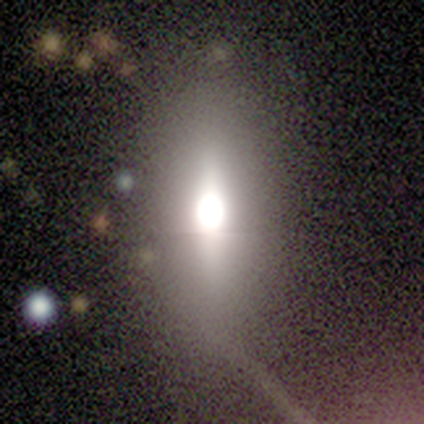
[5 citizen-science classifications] This is marginally a featured or disk galaxy (40%, tied with star or artifact). It is possibly viewed edge-on (50%, tied with no). Edge-on bulge: clearly rounded (100%). Merging: likely none (67%).